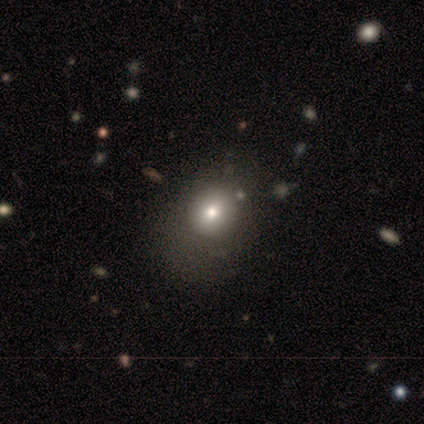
Volunteers were most divided on "smooth or featured": smooth: 60%, featured or disk: 40%, star or artifact: 0%. More confident: how rounded — in between (67%); merging — major disturbance (60%).